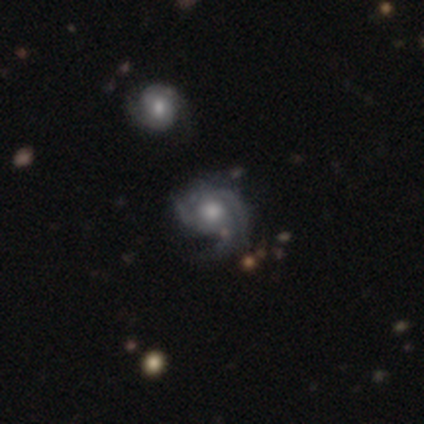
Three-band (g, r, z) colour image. It shows a featured or disk galaxy (87%) with no bar (79%), 3 (47%) medium (66%) spiral arms (97%) and a moderate central bulge (61%). Merging: none (50%).